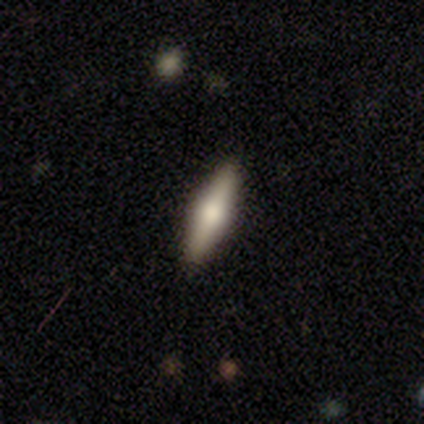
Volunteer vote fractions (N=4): Overall: featured or disk (75%). Edge-on disk: yes (100%). Edge-on bulge: rounded (100%). Merging: none (100%).